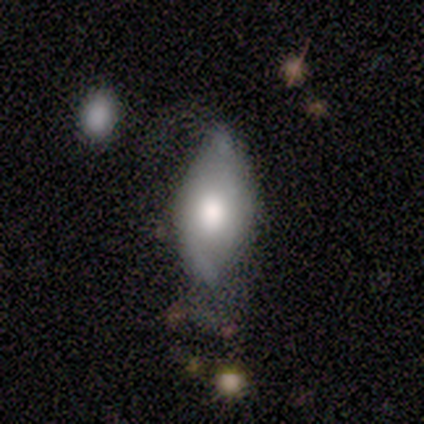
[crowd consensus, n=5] Smooth or featured? featured or disk (60%)
Edge-on disk? no (100%)
Bar? no (67%)
Spiral arms? no (67%)
Bulge size? large (100%)
Merging? minor disturbance (60%)